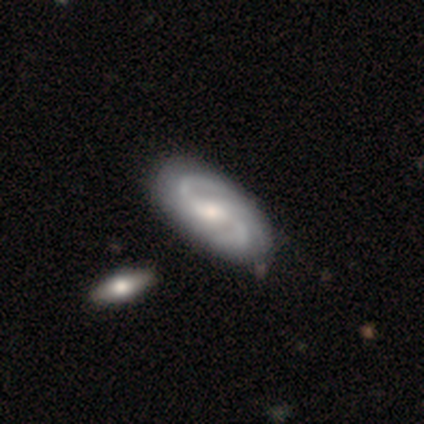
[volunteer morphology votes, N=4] A featured or disk galaxy (100%) with a weak bar (100%), 2 (100%) medium (100%) spiral arms (100%) and a small central bulge (75%).

Vote fractions:
- Smooth or featured? featured or disk: 100% / smooth: 0% / star or artifact: 0%
- Edge-on disk? no: 100% / yes: 0%
- Bar? weak: 100% / strong: 0% / no: 0%
- Spiral arms? yes: 100% / no: 0%
- Spiral winding? medium: 100% / tight: 0% / loose: 0%
- Spiral arm count? 2: 100% / 1: 0% / 3: 0% / 4: 0% / more than 4: 0% / can't tell: 0%
- Bulge size? small: 75% / moderate: 25% / dominant: 0% / large: 0% / none: 0%
- Merging? none: 75% / merger: 25% / minor disturbance: 0% / major disturbance: 0%